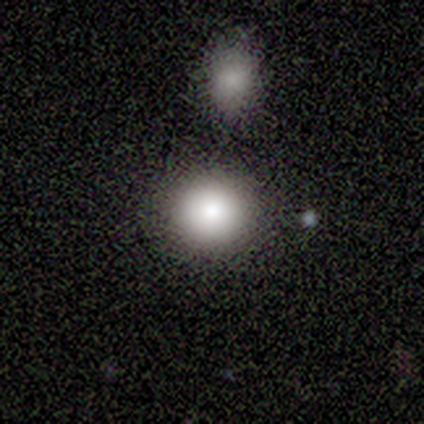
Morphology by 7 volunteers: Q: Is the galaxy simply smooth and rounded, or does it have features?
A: smooth — 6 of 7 (86%).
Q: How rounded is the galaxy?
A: round — 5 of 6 (83%).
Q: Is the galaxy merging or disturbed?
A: none — 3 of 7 (43%).